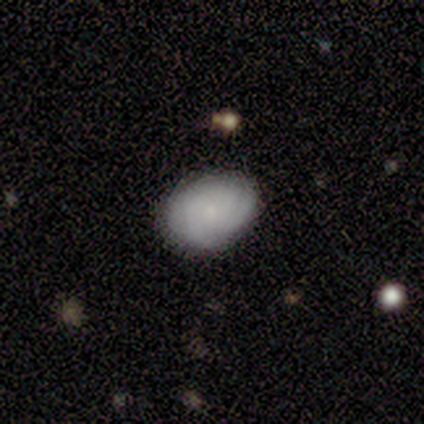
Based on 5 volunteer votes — Smooth or featured: featured or disk — 80% (smooth — 20%)
Edge-on disk: no — 100%
Bar: no — 100%
Spiral arms: yes — 100%
Spiral winding: tight — 75% (medium — 25%)
Spiral arm count: 3 — 75% (can't tell — 25%)
Bulge size: small — 100%
Merging: none — 80% (minor disturbance — 20%)